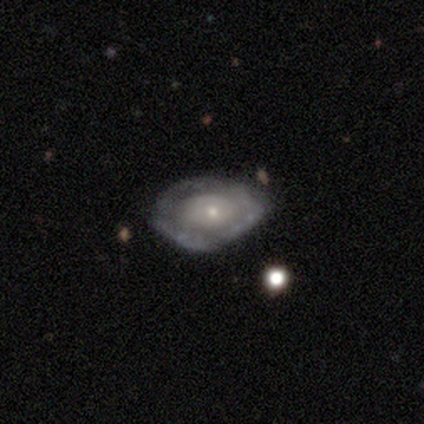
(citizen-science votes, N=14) A smooth galaxy with no disk features (50%) that is in between round and cigar-shaped (71%).

Vote fractions:
- Smooth or featured? smooth: 50% / featured or disk: 43% / star or artifact: 7%
- How rounded? in between: 71% / round: 29% / cigar-shaped: 0%
- Merging? none: 69% / minor disturbance: 15% / major disturbance: 15% / merger: 0%